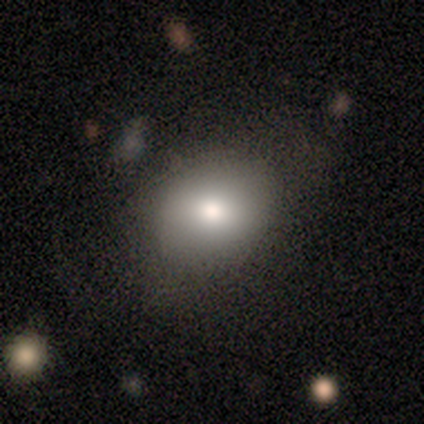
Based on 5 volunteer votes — Smooth or featured: smooth — 100%
How rounded: in between — 60% (round — 40%)
Merging: none — 80% (major disturbance — 20%)